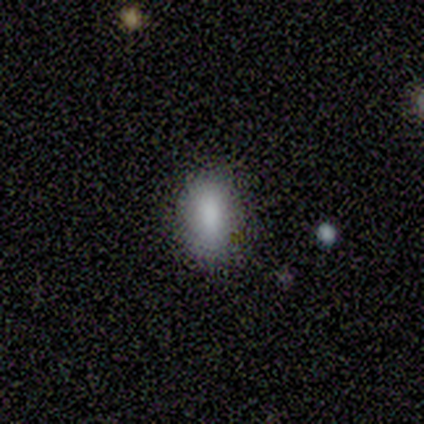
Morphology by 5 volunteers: Volunteers were most divided on "merging": none: 80%, minor disturbance: 20%, major disturbance: 0%, merger: 0%. More confident: smooth or featured — smooth (100%); how rounded — in between (100%).